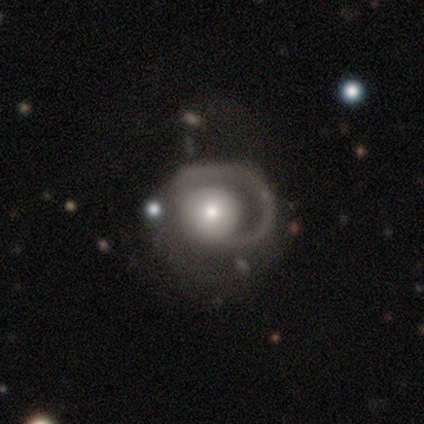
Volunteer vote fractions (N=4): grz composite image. It shows a featured or disk galaxy (50%) with no bar (100%), 1 (100%) medium (100%) spiral arms (50%, tied with no) and a moderate central bulge (100%). Merging: major disturbance (67%).